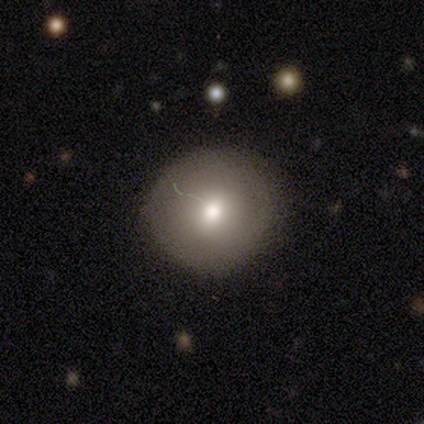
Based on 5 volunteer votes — smooth_or_featured: smooth (p=1.00)
how_rounded: round (p=1.00)
merging: none (p=0.80) [alt: minor disturbance p=0.20]